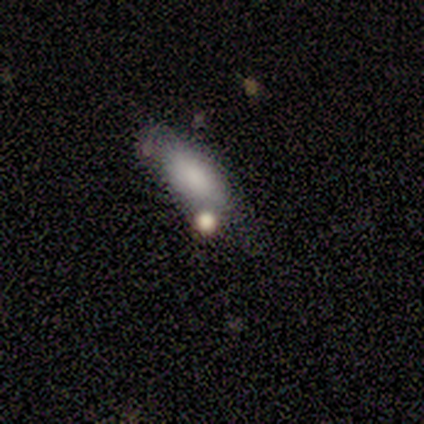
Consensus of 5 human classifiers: Smooth or featured: smooth — 80% (featured or disk — 20%)
How rounded: in between — 50% (tied with cigar-shaped — 50%)
Merging: none — 60% (minor disturbance — 40%)